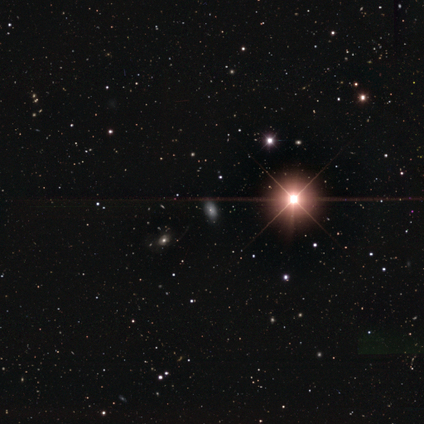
Smooth or featured: smooth — 60% (star or artifact — 40%)
How rounded: in between — 100%
Merging: none — 67% (minor disturbance — 33%)